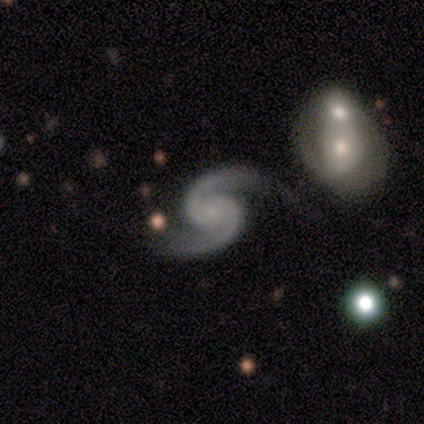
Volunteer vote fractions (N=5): featured or disk 100%, smooth 0%, star or artifact 0%. Down the decision tree: edge-on disk — no (100%); bar — no (60%); spiral arms — yes (100%); spiral arm count — 2 (100%); spiral winding — tight (60%); bulge size — small (100%); merging — none (100%).